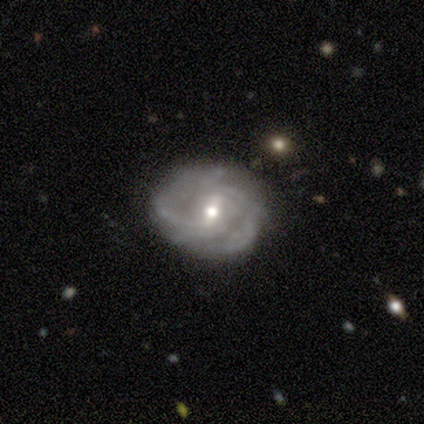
This appears to be a smooth galaxy with no disk features (60%) that is round (67%). Merging: none (60%).